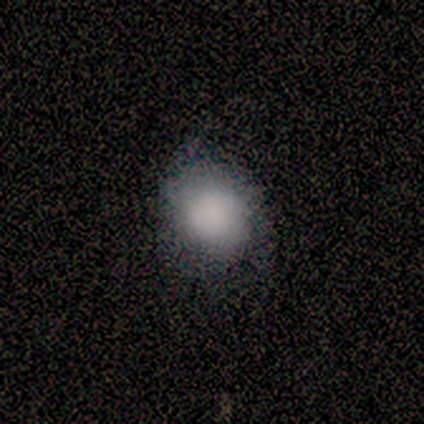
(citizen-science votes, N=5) Overall: smooth (80%). How rounded: round (75%). Merging: none (75%).